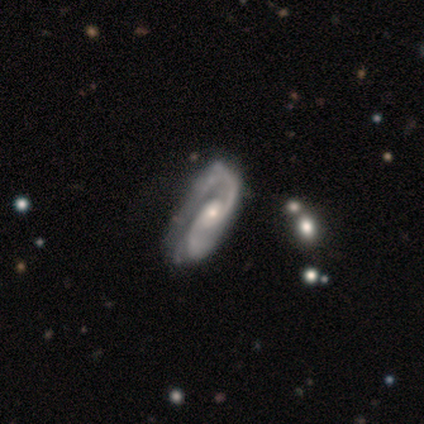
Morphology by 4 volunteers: type=featured or disk (100%); edge-on=no (100%); bar=no (75%); spiral arms=yes (100%); winding=medium (100%); arm count=2 (75%); bulge=small (75%); merging=none (50%).